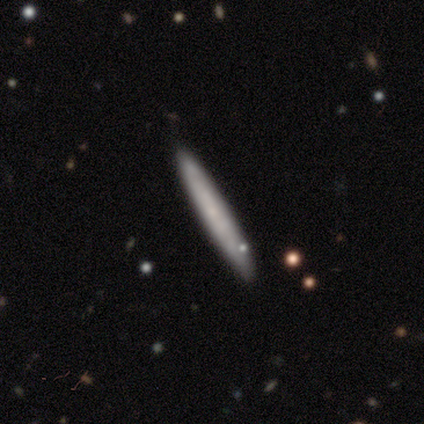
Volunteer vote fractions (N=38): Morphology: type=smooth (47%); roundness=cigar-shaped (100%); merging=none (86%).